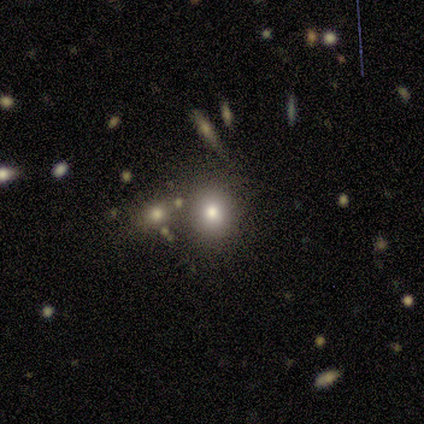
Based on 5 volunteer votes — This appears to be a smooth galaxy with no disk features (80%) that is in between round and cigar-shaped (75%). Merging: none (75%).